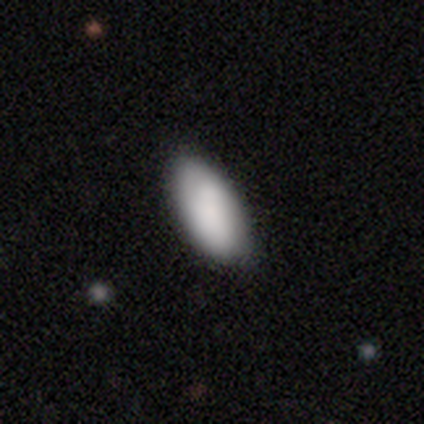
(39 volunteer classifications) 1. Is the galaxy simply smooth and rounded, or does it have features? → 79% smooth, 21% featured or disk, 0% star or artifact.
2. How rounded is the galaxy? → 94% in between, 3% round, 3% cigar-shaped.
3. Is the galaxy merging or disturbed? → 69% none, 10% minor disturbance, 3% major disturbance, 0% merger.